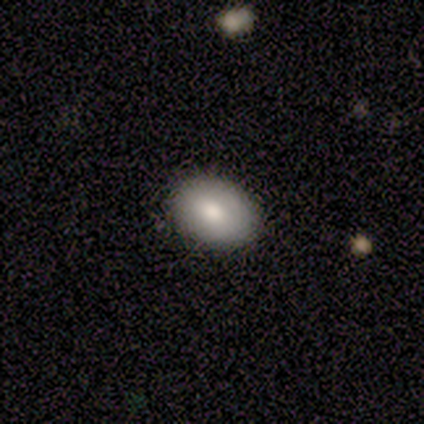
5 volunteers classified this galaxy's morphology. This appears to be a smooth galaxy with no disk features (60%) that is in between round and cigar-shaped (100%). Merging: none (100%).